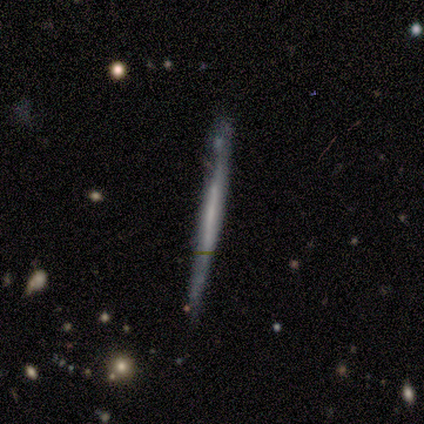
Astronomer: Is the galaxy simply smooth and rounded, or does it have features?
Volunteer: smooth — 50%, tied with featured or disk at 50%.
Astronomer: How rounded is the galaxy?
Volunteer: cigar-shaped — 100%.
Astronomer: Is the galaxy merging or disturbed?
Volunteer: none — 75%.